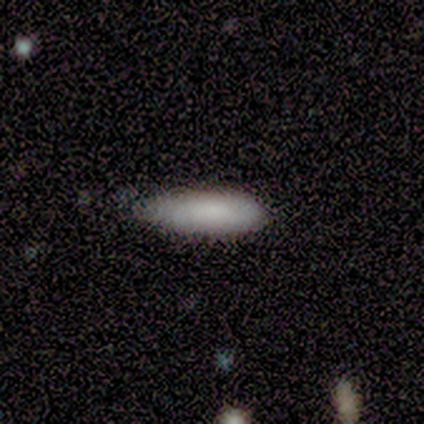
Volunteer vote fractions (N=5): Morphology: type=smooth (80%); roundness=in between (50%, tied with cigar-shaped); merging=none (75%).